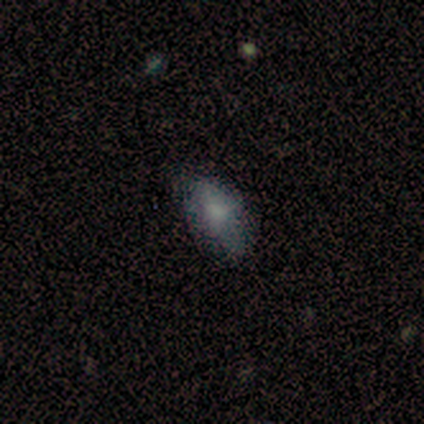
A smooth galaxy with no disk features (60%) that is in between round and cigar-shaped (100%). Merging: none (60%).